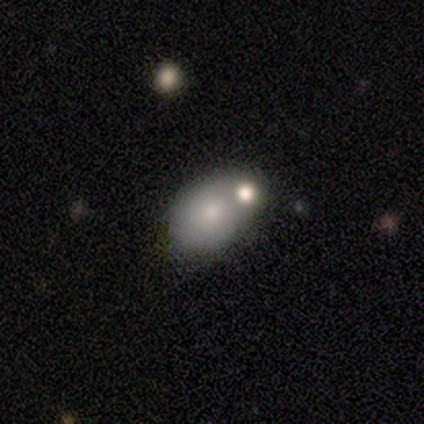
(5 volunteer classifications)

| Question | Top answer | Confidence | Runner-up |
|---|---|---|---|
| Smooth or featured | smooth | 80% | featured or disk (20%) |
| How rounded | round | 50% | tied: in between (50%) |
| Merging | none | 80% | merger (20%) |